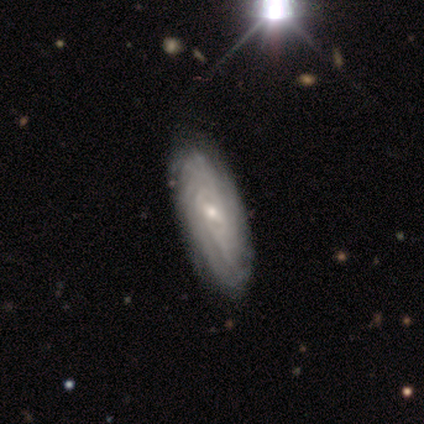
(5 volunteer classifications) Volunteers were most divided on "spiral arm count" (3-way tie): 2: 33%, more than 4: 33%, can't tell: 33%, 1: 0%, 3: 0%, 4: 0%. More confident: edge-on disk — no (100%); spiral arms — yes (100%); merging — none (75%); bar — weak (67%); spiral winding — tight (67%); bulge size — small (67%); smooth or featured — featured or disk (60%).